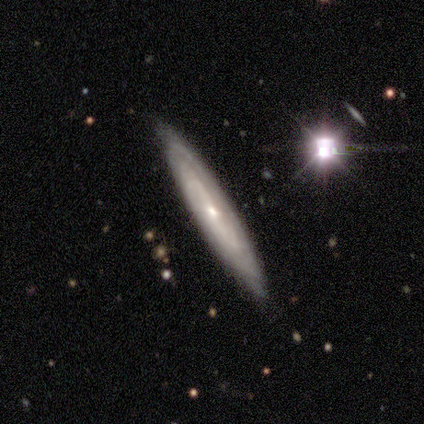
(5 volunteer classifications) Q: Smooth or featured?
A: featured or disk (80%); runner-up: smooth (20%)
Q: Edge-on disk?
A: yes (50%); tied with: no (50%)
Q: Edge-on bulge?
A: none (50%); tied with: rounded (50%)
Q: Merging?
A: none (80%); runner-up: minor disturbance (20%)